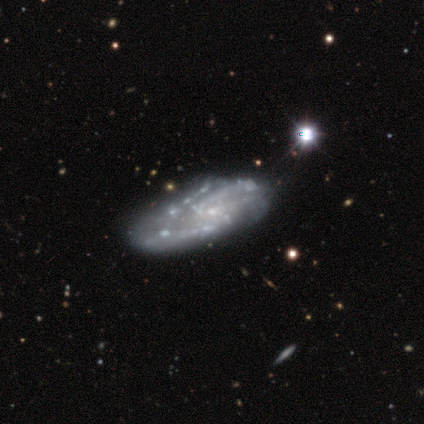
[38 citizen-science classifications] Morphology: type=featured or disk (84%); edge-on=no (97%); bar=no (74%); spiral arms=yes (74%); winding=medium (57%); arm count=2 (48%); bulge=small (58%); merging=none (41%).